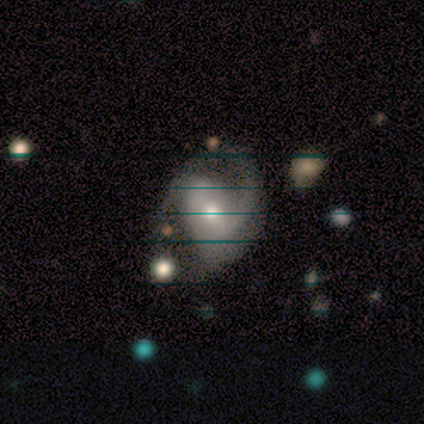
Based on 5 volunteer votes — Smooth or featured: featured or disk — 100%
Edge-on disk: no — 100%
Bar: weak — 40% (tied with no — 40%)
Spiral arms: yes — 80% (no — 20%)
Spiral winding: tight — 50% (medium — 25%)
Spiral arm count: 2 — 75% (can't tell — 25%)
Bulge size: moderate — 60% (small — 40%)
Merging: none — 40% (minor disturbance — 20%)